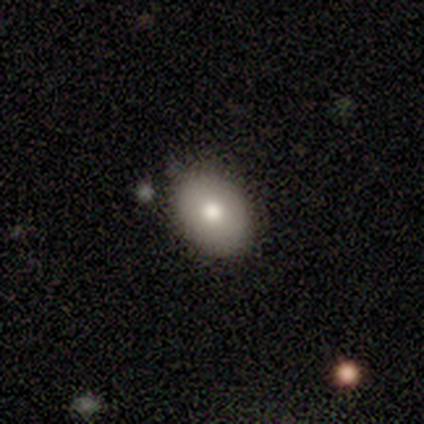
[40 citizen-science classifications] smooth_or_featured: smooth (p=0.82) [alt: featured or disk p=0.15]
how_rounded: in between (p=0.79) [alt: round p=0.21]
merging: none (p=0.85) [alt: minor disturbance p=0.10]